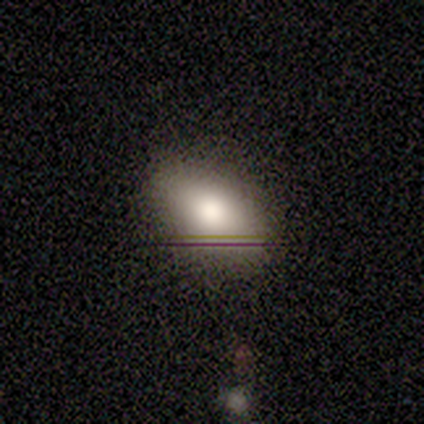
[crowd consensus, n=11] This appears to be a smooth galaxy with no disk features (64%) that is in between round and cigar-shaped (100%). Merging: none (89%).